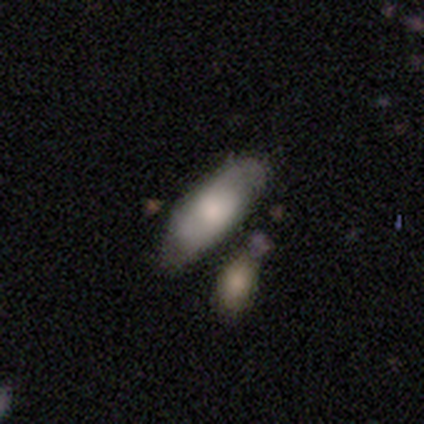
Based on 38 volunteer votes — Smooth or featured?
  - smooth: 61% *
  - featured or disk: 37%
  - star or artifact: 3%
How rounded?
  - in between: 74% *
  - cigar-shaped: 22%
  - round: 4%
Merging?
  - none: 59% *
  - merger: 19%
  - minor disturbance: 11%
  - major disturbance: 3%